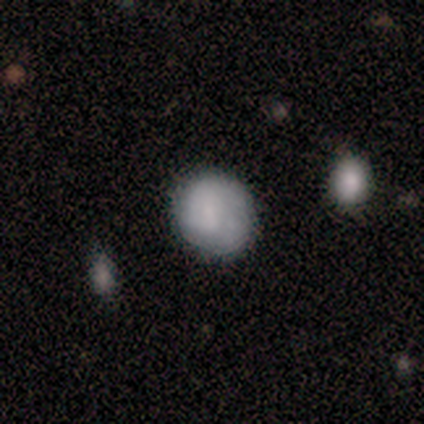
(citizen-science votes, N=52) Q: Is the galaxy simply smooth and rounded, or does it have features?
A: smooth — 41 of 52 (79%).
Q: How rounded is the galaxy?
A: round — 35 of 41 (85%).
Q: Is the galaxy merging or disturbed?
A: none — 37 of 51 (73%).